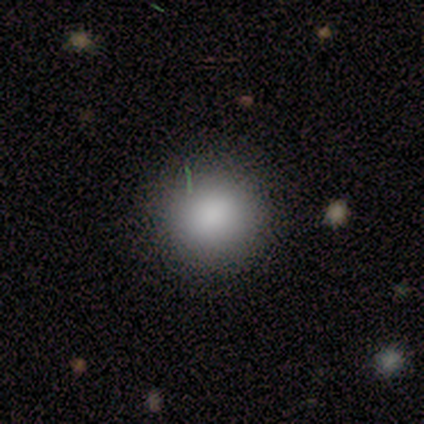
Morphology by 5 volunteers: A smooth galaxy with no disk features (100%) that is round (80%). Merging: none (100%).